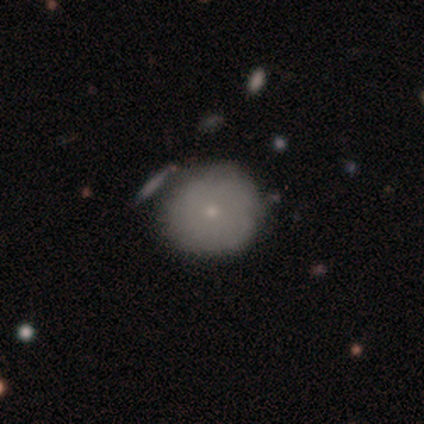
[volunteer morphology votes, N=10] smooth-or-featured: smooth: 70% | featured or disk: 20% | star or artifact: 10%
  how-rounded: round: 100% | in between: 0% | cigar-shaped: 0%
  merging: none: 89% | major disturbance: 11% | minor disturbance: 0% | merger: 0%